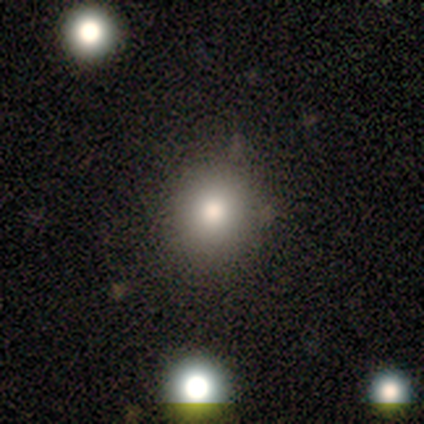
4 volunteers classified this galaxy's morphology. Smooth or featured? smooth (100%)
How rounded? round (100%)
Merging? none (75%)